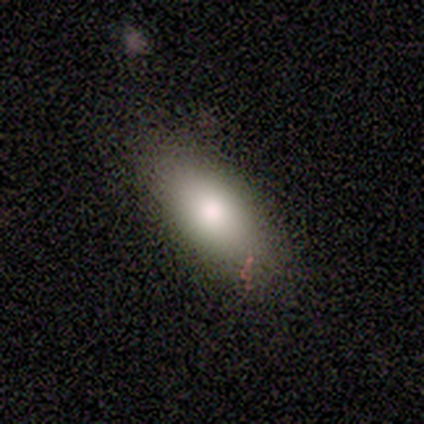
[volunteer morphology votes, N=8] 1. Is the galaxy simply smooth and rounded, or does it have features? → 75% smooth, 25% featured or disk, 0% star or artifact.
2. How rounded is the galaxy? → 100% in between, 0% round, 0% cigar-shaped.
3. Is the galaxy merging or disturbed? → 88% none, 12% major disturbance, 0% minor disturbance, 0% merger.